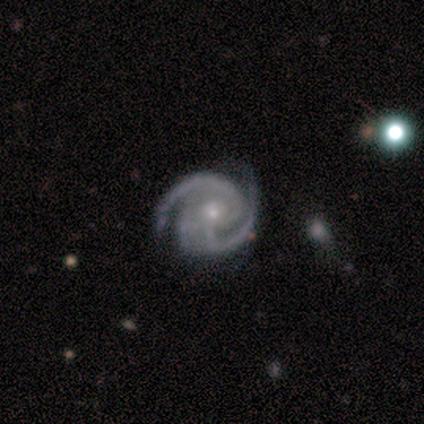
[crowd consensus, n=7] Overall: featured or disk (100%). Edge-on disk: no (86%). Bar: no (50%; weak 33%). Spiral arms: yes (100%). Spiral arm count: 2 (67%; 3 33%). Spiral winding: tight (67%). Bulge size: small (83%). Merging: none (71%).